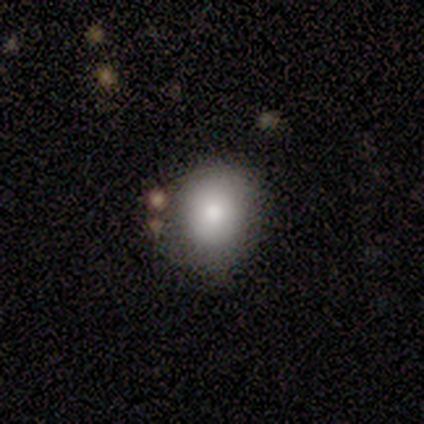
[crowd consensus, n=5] Smooth or featured?
  - smooth: 100% *
  - featured or disk: 0%
  - star or artifact: 0%
How rounded?
  - round: 80% *
  - in between: 20%
  - cigar-shaped: 0%
Merging?
  - none: 40% * (tied)
  - minor disturbance: 40% * (tied)
  - merger: 20%
  - major disturbance: 0%